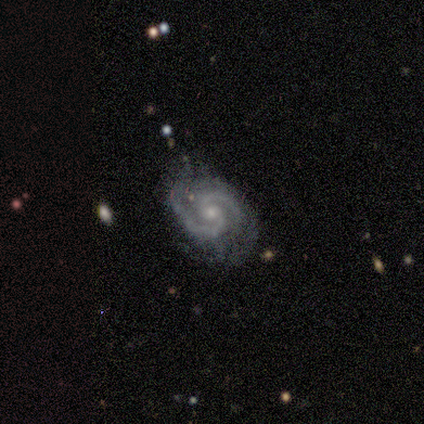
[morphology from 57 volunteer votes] A featured or disk galaxy (96%) with no bar (67%), 2 (98%) medium (63%) spiral arms (100%) and a moderate central bulge (54%).

Vote fractions:
- Smooth or featured? featured or disk: 96% / smooth: 2% / star or artifact: 2%
- Edge-on disk? no: 98% / yes: 2%
- Bar? no: 67% / weak: 33% / strong: 0%
- Spiral arms? yes: 100% / no: 0%
- Spiral winding? medium: 63% / tight: 33% / loose: 4%
- Spiral arm count? 2: 98% / 3: 2% / 1: 0% / 4: 0% / more than 4: 0% / can't tell: 0%
- Bulge size? moderate: 54% / small: 46% / dominant: 0% / large: 0% / none: 0%
- Merging? none: 62% / minor disturbance: 21% / major disturbance: 16% / merger: 0%